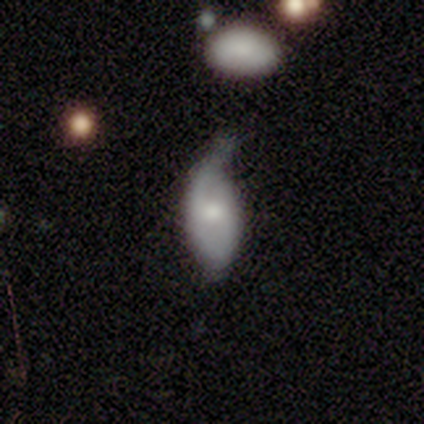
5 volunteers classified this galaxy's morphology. A featured or disk galaxy (80%) with no bar (75%), 2 (67%) loose (67%) spiral arms (75%) and a small central bulge (75%).

Vote fractions:
- Smooth or featured? featured or disk: 80% / smooth: 20% / star or artifact: 0%
- Edge-on disk? no: 100% / yes: 0%
- Bar? no: 75% / weak: 25% / strong: 0%
- Spiral arms? yes: 75% / no: 25%
- Spiral winding? loose: 67% / tight: 33% / medium: 0%
- Spiral arm count? 2: 67% / 1: 33% / 3: 0% / 4: 0% / more than 4: 0% / can't tell: 0%
- Bulge size? small: 75% / moderate: 25% / dominant: 0% / large: 0% / none: 0%
- Merging? minor disturbance: 60% / none: 20% / major disturbance: 20% / merger: 0%